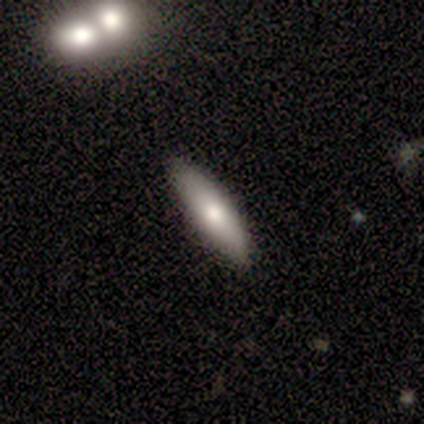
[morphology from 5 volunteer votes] Smooth or featured: smooth — 60% (featured or disk — 40%)
How rounded: cigar-shaped — 100%
Merging: none — 100%